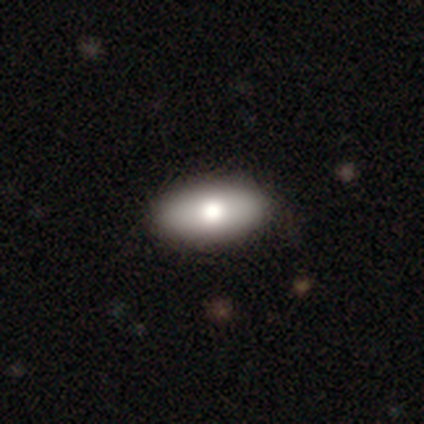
Smooth or featured: smooth — 85% (featured or disk — 15%)
How rounded: in between — 97% (cigar-shaped — 3%)
Merging: none — 50% (minor disturbance — 5%)